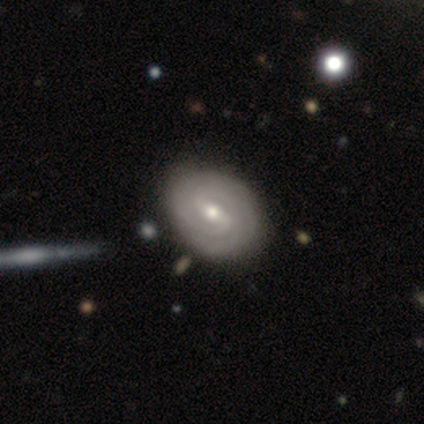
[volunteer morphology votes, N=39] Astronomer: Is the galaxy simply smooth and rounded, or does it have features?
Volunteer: featured or disk — 85%.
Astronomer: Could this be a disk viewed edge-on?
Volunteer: no — 94%.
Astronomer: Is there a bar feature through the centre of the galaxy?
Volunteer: strong — 48%, tied with weak at 48%.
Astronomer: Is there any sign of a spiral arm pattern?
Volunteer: yes — 100%.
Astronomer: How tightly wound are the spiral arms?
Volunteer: tight — 81%.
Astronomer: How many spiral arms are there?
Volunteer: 2 — 58% (runner-up: can't tell, 35%).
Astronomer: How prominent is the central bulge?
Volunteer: moderate — 48% (runner-up: small, 45%).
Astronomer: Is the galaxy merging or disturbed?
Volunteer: none — 58%.